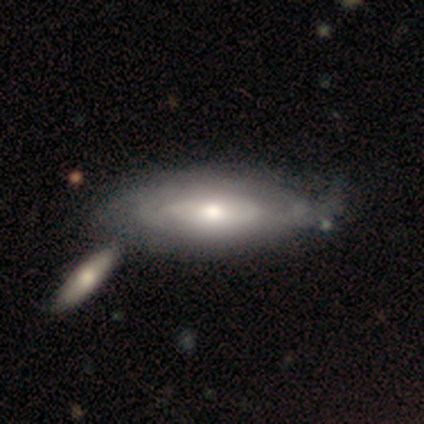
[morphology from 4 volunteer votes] featured or disk 50% (tied), star or artifact 50% (tied), smooth 0%. Down the decision tree: edge-on disk — no (100%); bar — no (100%); spiral arms — yes (100%); spiral arm count — can't tell (100%); spiral winding — tight (100%); bulge size — moderate (100%); merging — minor disturbance (100%).